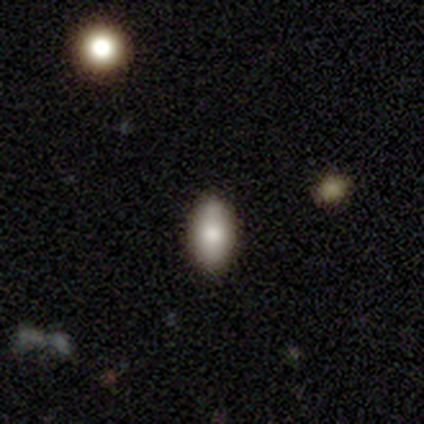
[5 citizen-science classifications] Q: Smooth or featured?
A: smooth (60%); runner-up: featured or disk (20%)
Q: How rounded?
A: in between (100%)
Q: Merging?
A: none (100%)